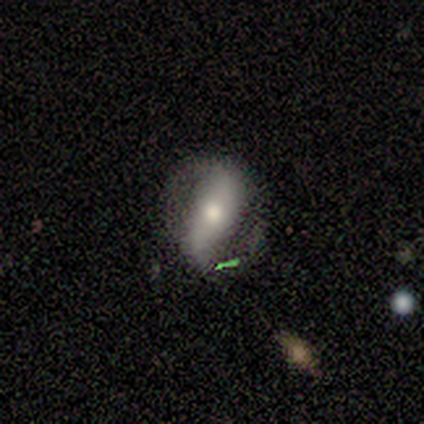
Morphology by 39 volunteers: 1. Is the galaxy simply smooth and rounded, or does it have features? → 59% featured or disk, 28% smooth, 13% star or artifact.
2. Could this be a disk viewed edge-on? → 91% no, 9% yes.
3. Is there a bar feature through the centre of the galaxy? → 43% strong, 29% weak, 29% no.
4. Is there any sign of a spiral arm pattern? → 81% yes, 19% no.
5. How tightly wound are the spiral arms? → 47% loose, 29% medium, 24% tight.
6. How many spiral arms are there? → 94% 2, 6% can't tell, 0% 1, 0% 3, 0% 4, 0% more than 4.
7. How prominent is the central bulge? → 52% moderate, 24% large, 19% small, 5% dominant, 0% none.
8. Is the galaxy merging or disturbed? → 62% none, 18% minor disturbance, 12% major disturbance, 9% merger.